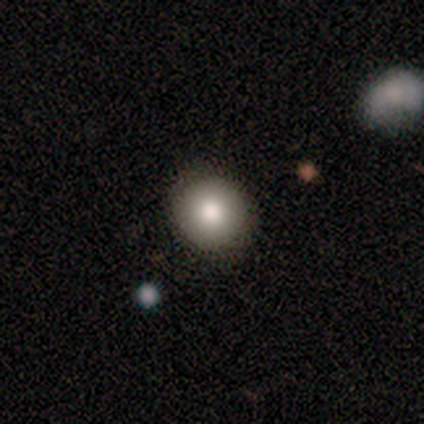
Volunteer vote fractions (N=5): Smooth or featured: smooth — 80% (featured or disk — 20%)
How rounded: round — 75% (in between — 25%)
Merging: none — 60% (minor disturbance — 40%)